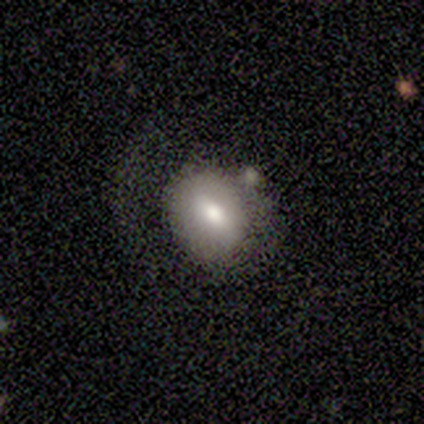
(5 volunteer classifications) This appears to be a smooth galaxy with no disk features (100%) that is in between round and cigar-shaped (80%). Merging: none (40%).